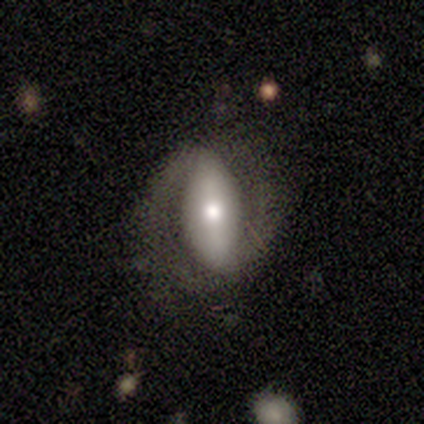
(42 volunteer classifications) Smooth or featured?
  - featured or disk: 67% *
  - smooth: 19%
  - star or artifact: 14%
Edge-on disk?
  - no: 93% *
  - yes: 7%
Bar?
  - strong: 58% *
  - no: 23%
  - weak: 19%
Spiral arms?
  - yes: 85% *
  - no: 15%
Spiral winding?
  - medium: 55% *
  - tight: 27%
  - loose: 18%
Spiral arm count?
  - 2: 95% *
  - can't tell: 5%
  - 1: 0%
  - 3: 0%
  - 4: 0%
  - more than 4: 0%
Bulge size?
  - moderate: 73% *
  - dominant: 12%
  - large: 12%
  - small: 4%
  - none: 0%
Merging?
  - none: 61% *
  - major disturbance: 22%
  - minor disturbance: 17%
  - merger: 0%